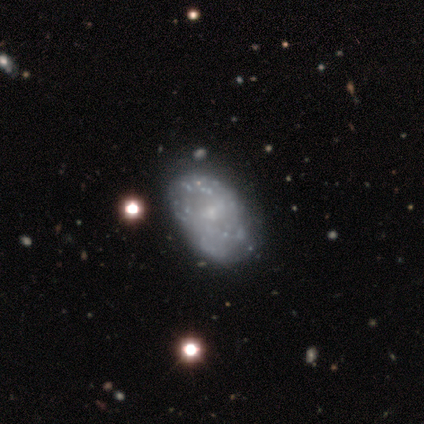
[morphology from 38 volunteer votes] A featured or disk galaxy (82%) with no bar (71%), medium (38%, tied with loose) spiral arms (52%) and a small central bulge (65%).

Vote fractions:
- Smooth or featured? featured or disk: 82% / smooth: 11% / star or artifact: 8%
- Edge-on disk? no: 100% / yes: 0%
- Bar? no: 71% / weak: 29% / strong: 0%
- Spiral arms? yes: 52% / no: 48%
- Spiral winding? medium: 38% (tied) / loose: 38% (tied) / tight: 25%
- Spiral arm count? can't tell: 75% / 2: 12% / 3: 6% / 4: 6% / 1: 0% / more than 4: 0%
- Bulge size? small: 65% / none: 19% / moderate: 13% / large: 3% / dominant: 0%
- Merging? none: 37% / minor disturbance: 11% / major disturbance: 11% / merger: 9%